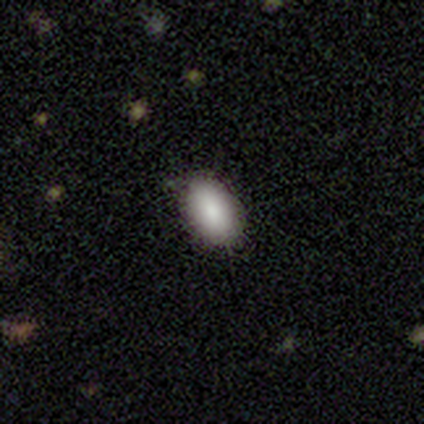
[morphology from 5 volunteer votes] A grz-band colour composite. It shows a smooth galaxy with no disk features (100%) that is in between round and cigar-shaped (100%). Merging: none (80%).